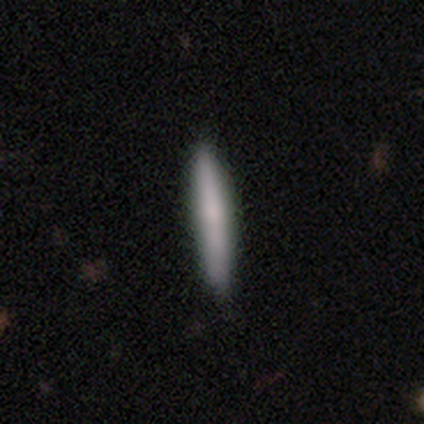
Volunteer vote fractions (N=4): Q: Smooth or featured?
A: smooth (75%); runner-up: featured or disk (25%)
Q: How rounded?
A: cigar-shaped (100%)
Q: Merging?
A: none (100%)